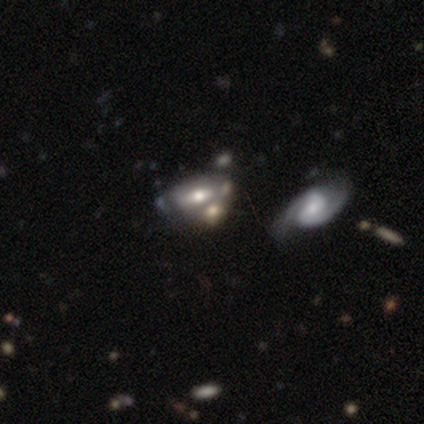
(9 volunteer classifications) Smooth or featured?
  - smooth: 67% *
  - featured or disk: 33%
  - star or artifact: 0%
How rounded?
  - in between: 67% *
  - round: 17%
  - cigar-shaped: 17%
Merging?
  - merger: 44% *
  - none: 33%
  - minor disturbance: 22%
  - major disturbance: 0%